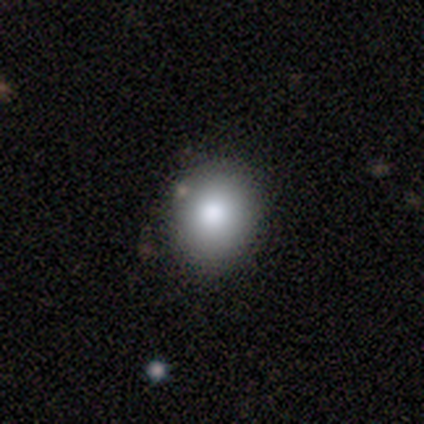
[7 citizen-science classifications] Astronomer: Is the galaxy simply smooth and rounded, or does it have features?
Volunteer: smooth — 71%.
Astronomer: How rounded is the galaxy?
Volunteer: round — 80%.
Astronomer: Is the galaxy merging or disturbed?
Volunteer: none — 83%.